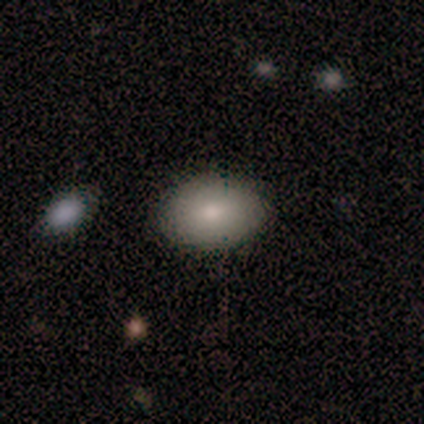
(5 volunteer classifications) smooth-or-featured: smooth: 100% | featured or disk: 0% | star or artifact: 0%
  how-rounded: in between: 80% | round: 20% | cigar-shaped: 0%
  merging: none: 80% | minor disturbance: 20% | major disturbance: 0% | merger: 0%